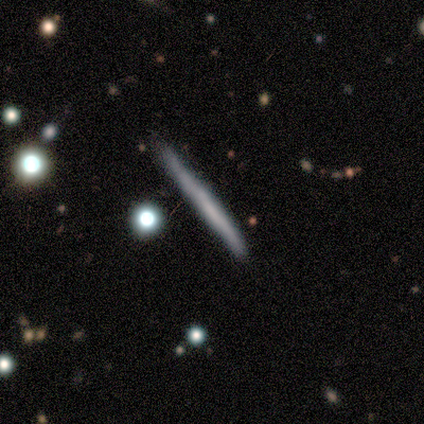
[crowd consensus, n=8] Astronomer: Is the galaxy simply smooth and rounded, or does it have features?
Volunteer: featured or disk — 50% (runner-up: smooth, 38%).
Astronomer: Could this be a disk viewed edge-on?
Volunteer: yes — 100%.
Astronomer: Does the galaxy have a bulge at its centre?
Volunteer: none — 100%.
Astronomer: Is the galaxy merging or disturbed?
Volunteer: none — 43% (runner-up: major disturbance, 29%).